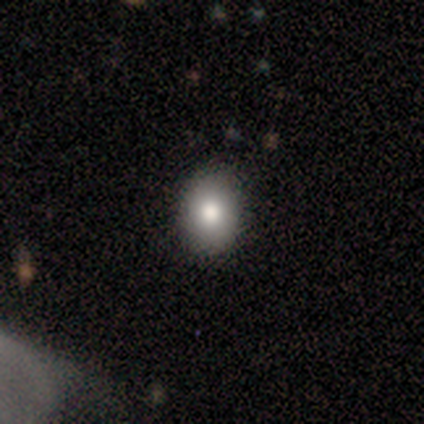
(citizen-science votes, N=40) This is clearly a smooth galaxy (80%). How rounded: possibly round (53%). Merging: clearly none (94%).